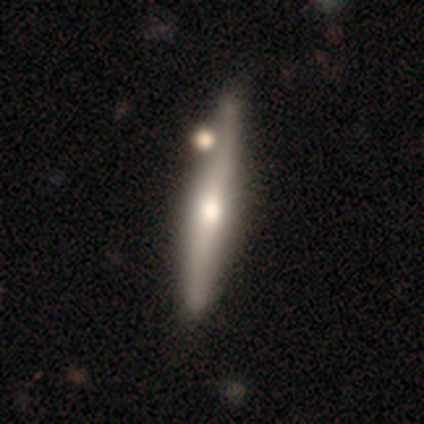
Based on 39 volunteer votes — Volunteers were most divided on "smooth or featured": featured or disk: 59%, smooth: 41%, star or artifact: 0%. More confident: edge-on disk — yes (96%); edge-on bulge — rounded (86%); merging — none (51%).